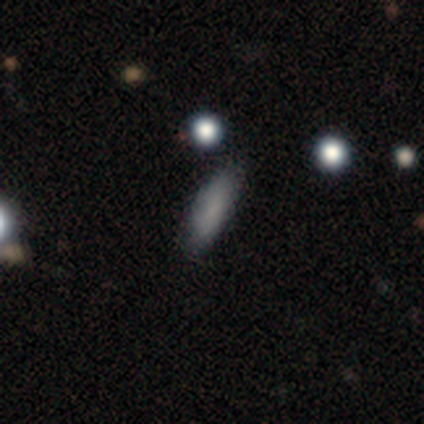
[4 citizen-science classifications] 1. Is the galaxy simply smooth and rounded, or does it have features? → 100% smooth, 0% featured or disk, 0% star or artifact.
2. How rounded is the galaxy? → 100% cigar-shaped, 0% round, 0% in between.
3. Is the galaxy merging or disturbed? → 75% none, 25% minor disturbance, 0% major disturbance, 0% merger.